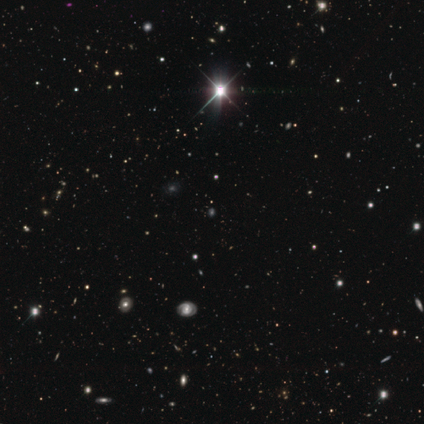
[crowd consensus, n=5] This appears to be a star or artifact, not a galaxy (100%).